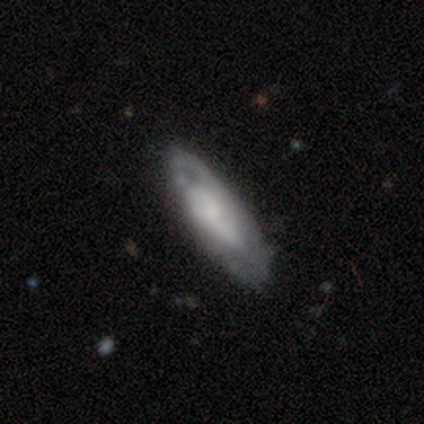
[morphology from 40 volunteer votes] This appears to be a featured or disk galaxy (65%) with no bar (76%), tight (50%) spiral arms (71%) and a small central bulge (59%). Merging: none (77%).